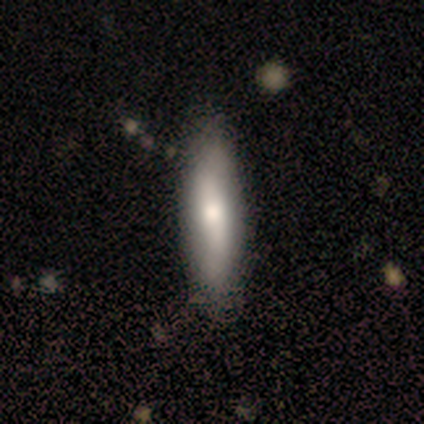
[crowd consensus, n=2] This is clearly a smooth galaxy (100%). How rounded: possibly in between (50%, tied with cigar-shaped). Merging: clearly none (100%).